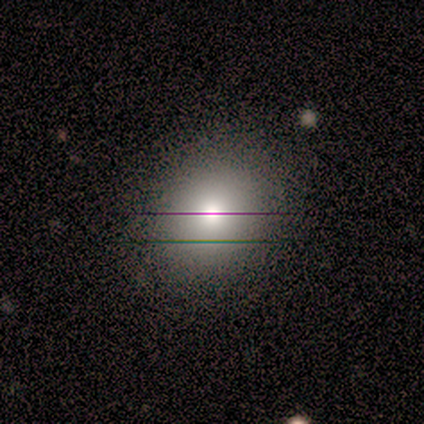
Smooth or featured? smooth (75%)
How rounded? round (83%)
Merging? none (86%)